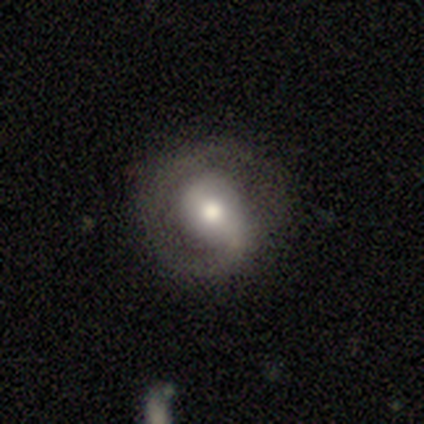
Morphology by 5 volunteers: Smooth or featured? 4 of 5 (80%) said featured or disk. Edge-on disk? 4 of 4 (100%) said no. Bar? 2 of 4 (50%) said no. Spiral arms? 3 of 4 (75%) said yes. Spiral winding? 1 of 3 (33%, tied with medium and loose) said tight. Spiral arm count? 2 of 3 (67%) said 2. Bulge size? 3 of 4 (75%) said moderate. Merging? 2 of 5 (40%, tied with minor disturbance) said none.